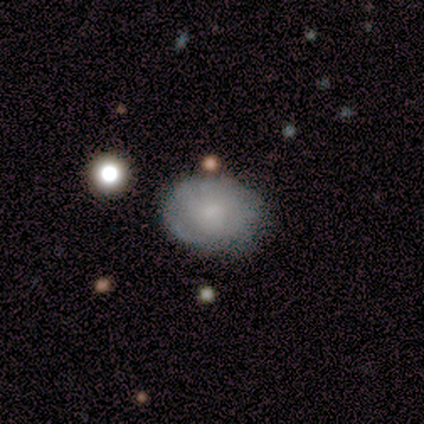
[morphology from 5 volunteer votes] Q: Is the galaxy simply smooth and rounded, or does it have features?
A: smooth — 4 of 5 (80%).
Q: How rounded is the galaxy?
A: in between — 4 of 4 (100%).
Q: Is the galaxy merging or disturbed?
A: none — 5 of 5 (100%).